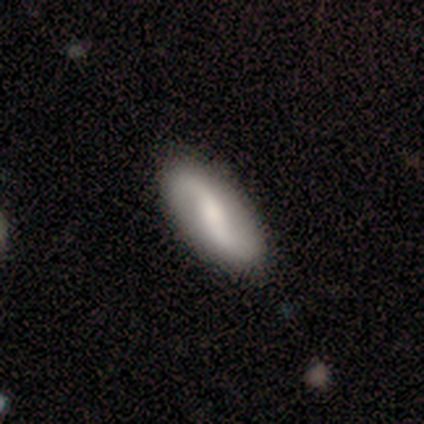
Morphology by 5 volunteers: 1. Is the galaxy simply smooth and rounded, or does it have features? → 60% featured or disk, 20% smooth, 20% star or artifact.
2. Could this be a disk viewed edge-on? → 100% no, 0% yes.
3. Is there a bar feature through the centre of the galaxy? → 67% weak, 33% strong, 0% no.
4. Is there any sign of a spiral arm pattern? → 100% yes, 0% no.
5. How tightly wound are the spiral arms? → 67% loose, 33% medium, 0% tight.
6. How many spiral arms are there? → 100% 2, 0% 1, 0% 3, 0% 4, 0% more than 4, 0% can't tell.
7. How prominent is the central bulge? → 67% small, 33% moderate, 0% dominant, 0% large, 0% none.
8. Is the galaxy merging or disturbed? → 75% none, 25% minor disturbance, 0% major disturbance, 0% merger.